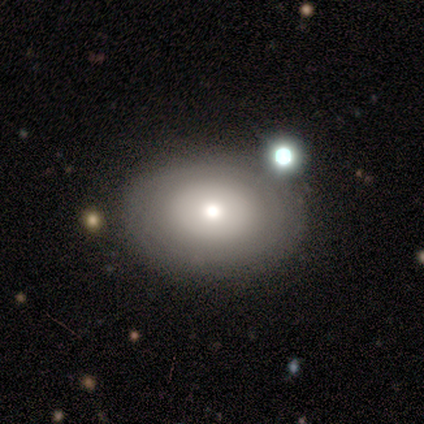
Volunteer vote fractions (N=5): Volunteers were most divided on "how rounded": in between: 75%, round: 25%, cigar-shaped: 0%. More confident: smooth or featured — smooth (80%); merging — none (75%).